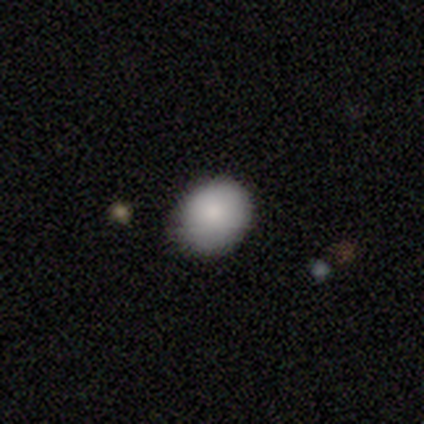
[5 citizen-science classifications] A smooth galaxy with no disk features (100%) that is in between round and cigar-shaped (60%).

Vote fractions:
- Smooth or featured? smooth: 100% / featured or disk: 0% / star or artifact: 0%
- How rounded? in between: 60% / round: 40% / cigar-shaped: 0%
- Merging? none: 80% / minor disturbance: 20% / major disturbance: 0% / merger: 0%